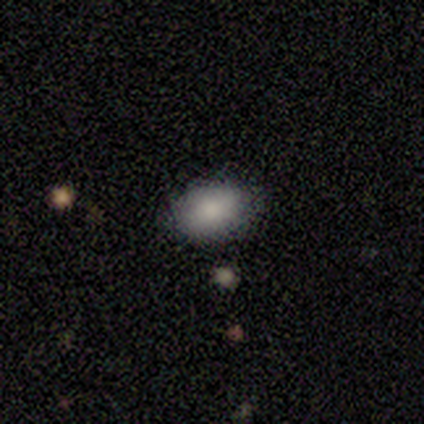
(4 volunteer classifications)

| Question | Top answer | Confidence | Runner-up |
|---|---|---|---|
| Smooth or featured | smooth | 100% | — |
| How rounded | in between | 100% | — |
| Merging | none | 100% | — |